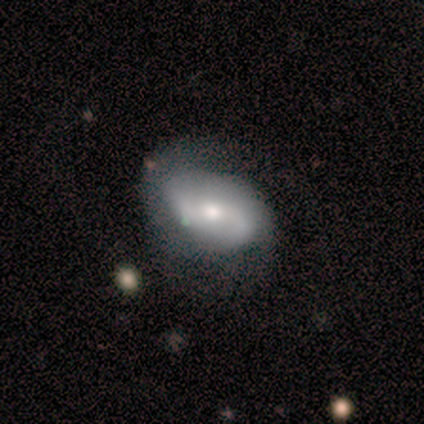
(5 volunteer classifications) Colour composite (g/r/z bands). It shows a featured or disk galaxy (100%) with no bar (80%), 2 (100%) loose (60%) spiral arms (100%) and a moderate central bulge (40%, tied with small). Merging: none (40%, tied with minor disturbance).